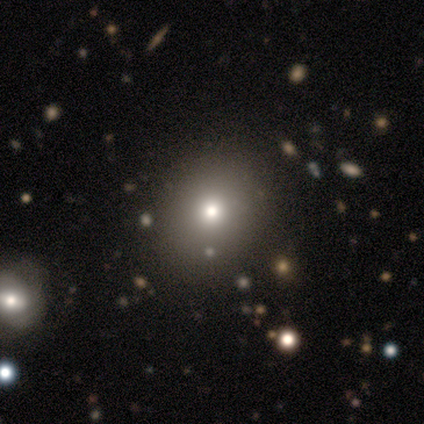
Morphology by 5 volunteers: Overall: smooth (60%; star or artifact 40%). How rounded: in between (67%; round 33%). Merging: minor disturbance (67%; none 33%).